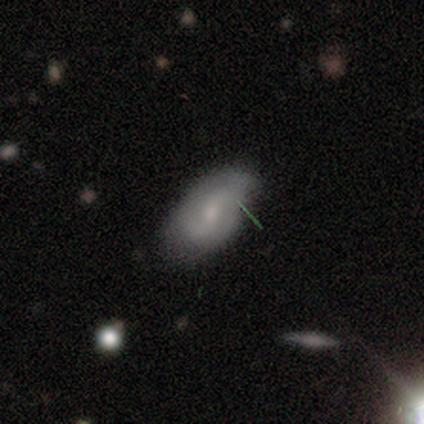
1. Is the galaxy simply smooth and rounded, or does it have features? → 80% featured or disk, 20% smooth, 0% star or artifact.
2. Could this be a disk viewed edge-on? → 100% no, 0% yes.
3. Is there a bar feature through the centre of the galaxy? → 75% weak, 25% no, 0% strong.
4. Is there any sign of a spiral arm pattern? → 50% yes (tied), 50% no (tied).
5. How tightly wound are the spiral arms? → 50% medium (tied), 50% loose (tied), 0% tight.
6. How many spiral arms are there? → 100% 2, 0% 1, 0% 3, 0% 4, 0% more than 4, 0% can't tell.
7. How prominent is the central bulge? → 75% moderate, 25% small, 0% dominant, 0% large, 0% none.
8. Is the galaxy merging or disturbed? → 60% minor disturbance, 40% none, 0% major disturbance, 0% merger.